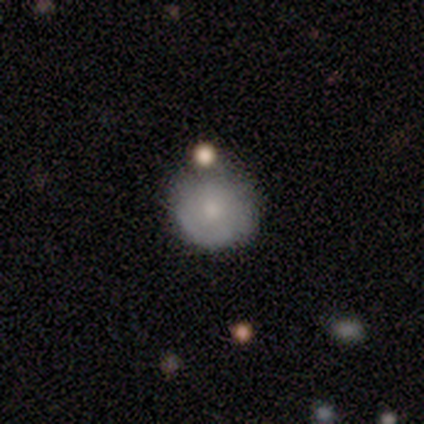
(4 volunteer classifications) This appears to be a smooth galaxy with no disk features (100%) that is round (100%). Merging: none (50%).